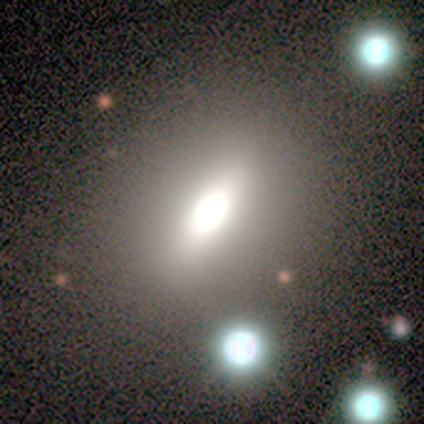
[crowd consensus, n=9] Smooth or featured? 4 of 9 (44%) said smooth. How rounded? 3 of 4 (75%) said in between. Merging? 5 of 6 (83%) said none.